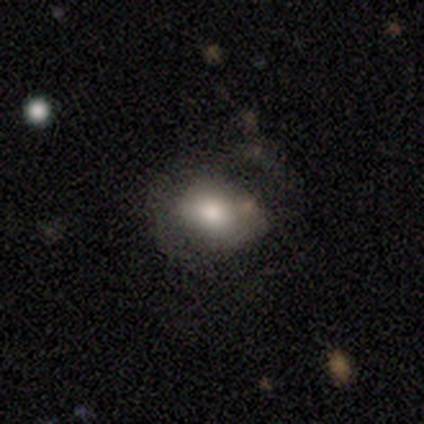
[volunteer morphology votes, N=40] Smooth or featured?
  - smooth: 72% *
  - featured or disk: 18%
  - star or artifact: 10%
How rounded?
  - in between: 79% *
  - round: 21%
  - cigar-shaped: 0%
Merging?
  - none: 56% *
  - minor disturbance: 31%
  - major disturbance: 14%
  - merger: 0%